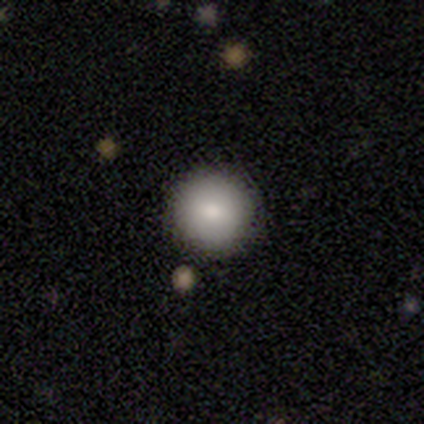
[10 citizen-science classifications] Q: Smooth or featured?
A: smooth (100%)
Q: How rounded?
A: round (90%); runner-up: in between (10%)
Q: Merging?
A: none (90%); runner-up: minor disturbance (10%)